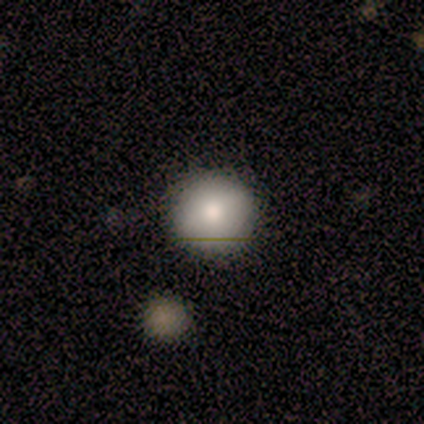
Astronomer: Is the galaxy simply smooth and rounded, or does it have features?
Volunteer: smooth — 68%.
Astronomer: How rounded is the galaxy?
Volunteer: round — 100%.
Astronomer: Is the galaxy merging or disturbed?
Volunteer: none — 96%.